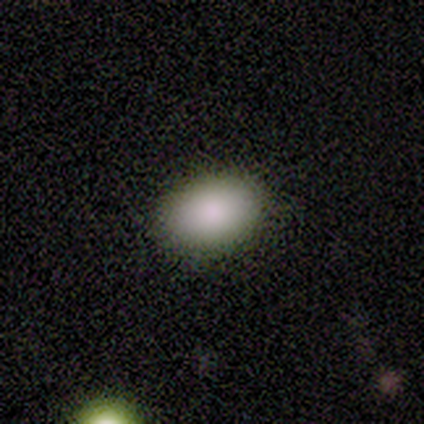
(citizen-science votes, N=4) smooth 100%, featured or disk 0%, star or artifact 0%. Down the decision tree: how rounded — in between (75%); merging — none (75%).